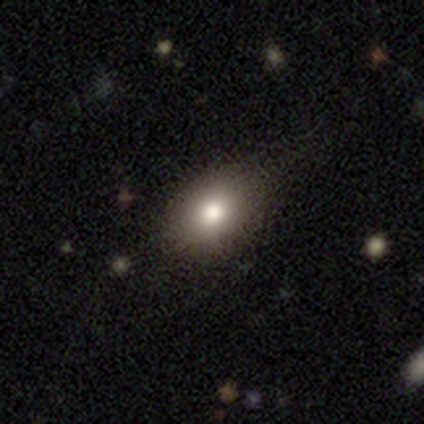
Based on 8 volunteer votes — smooth_or_featured: smooth (p=0.88) [alt: featured or disk p=0.12]
how_rounded: in between (p=0.86) [alt: round p=0.14]
merging: none (p=1.00)